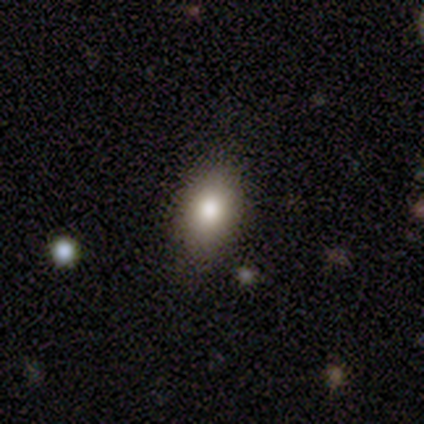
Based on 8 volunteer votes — Overall: smooth (100%). How rounded: round (50%; in between 38%). Merging: none (100%).